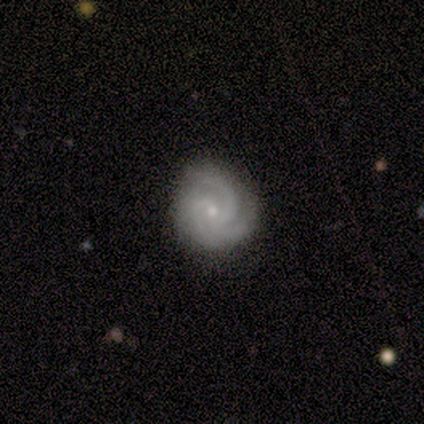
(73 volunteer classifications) This is clearly a featured or disk galaxy (89%). It is clearly not viewed edge-on (98%). Bar: likely no (75%). Spiral arm pattern: clearly yes (100%). Spiral arm count: likely 3 (72%). Spiral winding: likely tight (64%). Central bulge: likely small (72%). Merging: clearly none (81%).